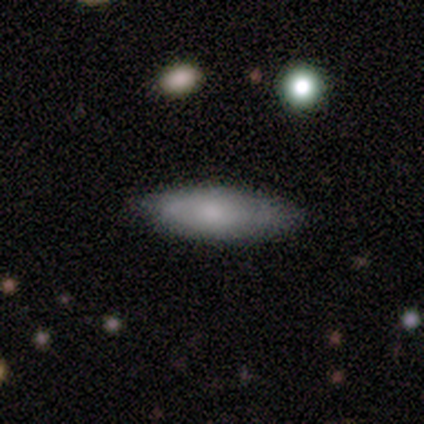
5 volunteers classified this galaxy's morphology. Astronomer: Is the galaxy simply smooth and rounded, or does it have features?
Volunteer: smooth — 80%.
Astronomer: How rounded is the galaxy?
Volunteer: cigar-shaped — 75%.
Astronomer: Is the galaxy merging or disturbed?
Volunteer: none — 80%.